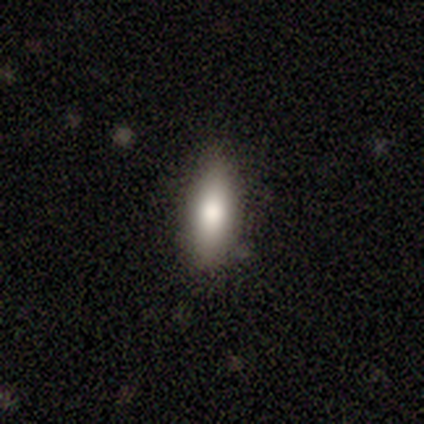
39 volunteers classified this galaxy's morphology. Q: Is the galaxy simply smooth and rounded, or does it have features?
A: smooth — 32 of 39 (82%).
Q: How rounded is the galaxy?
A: in between — 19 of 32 (59%).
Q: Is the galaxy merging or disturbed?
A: none — 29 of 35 (83%).